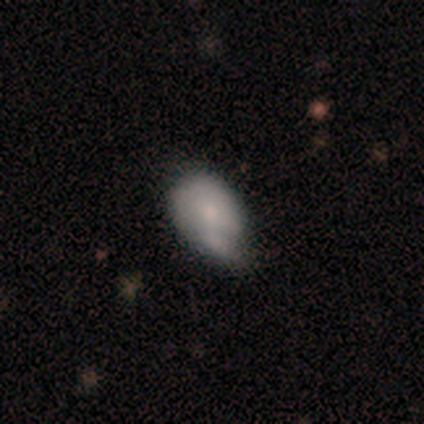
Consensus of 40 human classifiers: Smooth or featured? smooth (68%)
How rounded? in between (85%)
Merging? minor disturbance (45%)